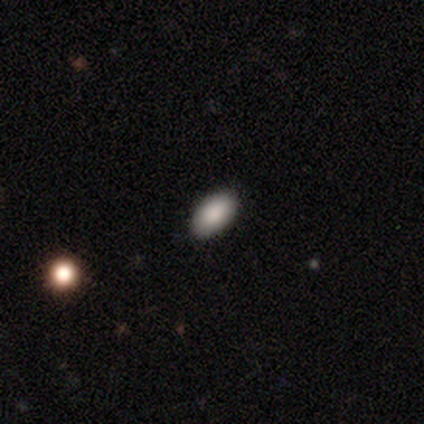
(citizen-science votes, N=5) A smooth galaxy with no disk features (100%) that is in between round and cigar-shaped (100%).

Vote fractions:
- Smooth or featured? smooth: 100% / featured or disk: 0% / star or artifact: 0%
- How rounded? in between: 100% / round: 0% / cigar-shaped: 0%
- Merging? none: 100% / minor disturbance: 0% / major disturbance: 0% / merger: 0%